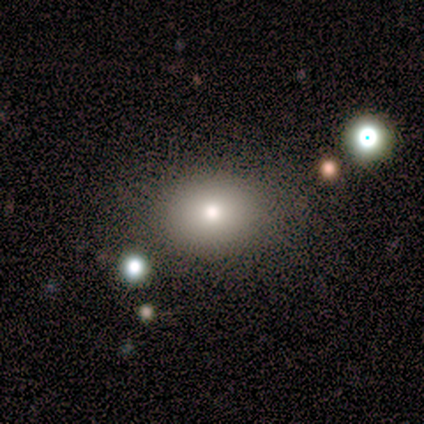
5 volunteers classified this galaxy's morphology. smooth-or-featured: smooth: 60% | featured or disk: 40% | star or artifact: 0%
  how-rounded: round: 67% | in between: 33% | cigar-shaped: 0%
  merging: none: 60% | minor disturbance: 40% | major disturbance: 0% | merger: 0%